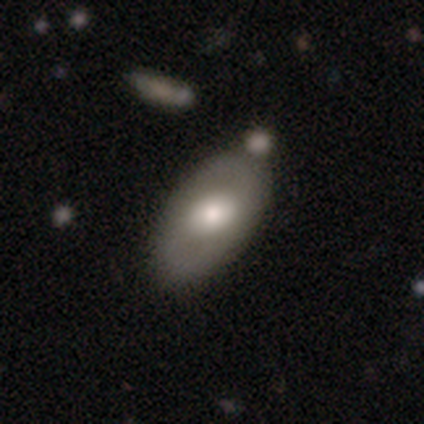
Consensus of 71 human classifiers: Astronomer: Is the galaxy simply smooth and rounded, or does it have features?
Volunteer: smooth — 58% (runner-up: featured or disk, 39%).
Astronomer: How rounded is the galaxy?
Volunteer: in between — 93%.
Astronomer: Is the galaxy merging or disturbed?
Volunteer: none — 70%.